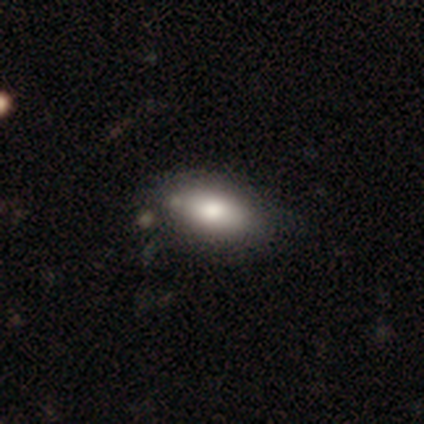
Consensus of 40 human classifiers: smooth_or_featured: smooth (p=0.70) [alt: featured or disk p=0.25]
how_rounded: in between (p=0.93) [alt: round p=0.04]
merging: none (p=0.53) [alt: merger p=0.13]